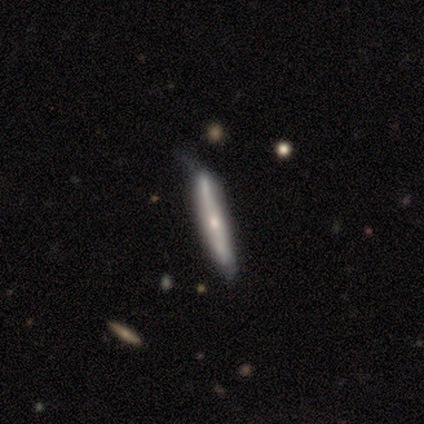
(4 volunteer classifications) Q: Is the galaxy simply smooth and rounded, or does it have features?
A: smooth — 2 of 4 (50%, tied with featured or disk).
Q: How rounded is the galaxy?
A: cigar-shaped — 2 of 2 (100%).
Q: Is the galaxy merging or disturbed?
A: none — 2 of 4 (50%).